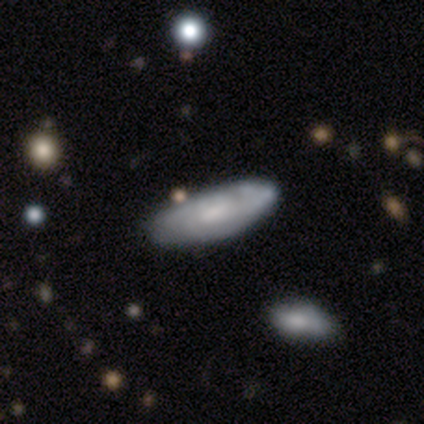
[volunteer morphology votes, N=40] A featured or disk galaxy (52%) with a weak bar (53%), tight (73%) spiral arms (79%) and a small central bulge (47%).

Vote fractions:
- Smooth or featured? featured or disk: 52% / smooth: 48% / star or artifact: 0%
- Edge-on disk? no: 90% / yes: 10%
- Bar? weak: 53% / no: 47% / strong: 0%
- Spiral arms? yes: 79% / no: 21%
- Spiral winding? tight: 73% / medium: 27% / loose: 0%
- Spiral arm count? can't tell: 73% / 2: 13% / 3: 13% / 1: 0% / 4: 0% / more than 4: 0%
- Bulge size? small: 47% / moderate: 42% / large: 5% / none: 5% / dominant: 0%
- Merging? none: 42% / minor disturbance: 20% / merger: 8% / major disturbance: 5%